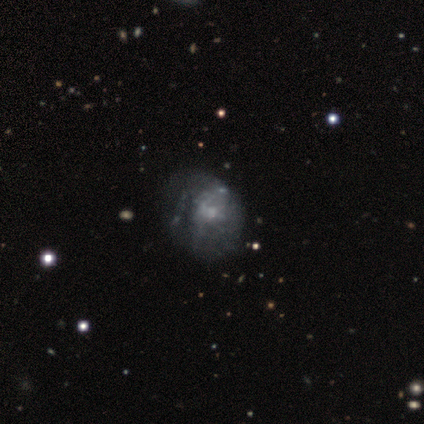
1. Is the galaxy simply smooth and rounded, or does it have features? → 74% featured or disk, 16% smooth, 11% star or artifact.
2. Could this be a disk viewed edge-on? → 100% no, 0% yes.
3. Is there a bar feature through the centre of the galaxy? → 89% no, 11% weak, 0% strong.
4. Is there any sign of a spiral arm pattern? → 82% no, 18% yes.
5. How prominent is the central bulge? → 39% small, 36% none, 25% moderate, 0% dominant, 0% large.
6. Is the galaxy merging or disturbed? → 41% none, 21% major disturbance, 3% minor disturbance, 3% merger.